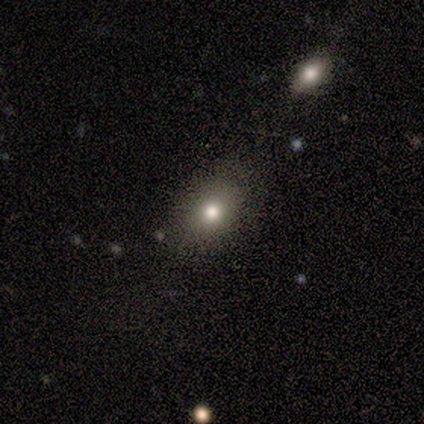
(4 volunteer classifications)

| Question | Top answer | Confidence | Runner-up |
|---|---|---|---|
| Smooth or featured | smooth | 100% | — |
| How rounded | round | 50% | tied: in between (50%) |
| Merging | none | 100% | — |